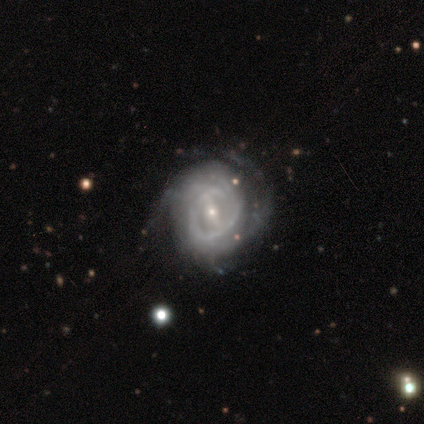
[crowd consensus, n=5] featured or disk 100%, smooth 0%, star or artifact 0%. Down the decision tree: edge-on disk — no (100%); bar — strong (60%); spiral arms — yes (60%); spiral arm count — can't tell (67%); spiral winding — loose (67%); bulge size — moderate (60%); merging — minor disturbance (60%).